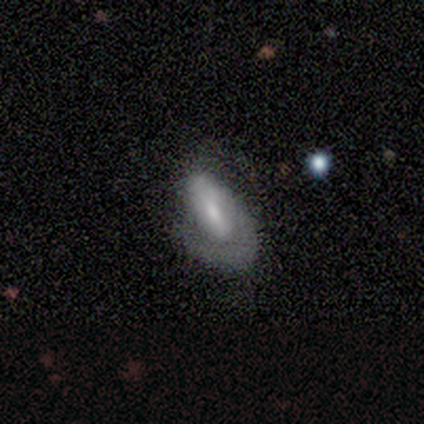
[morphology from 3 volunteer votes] featured or disk 100%, smooth 0%, star or artifact 0%. Down the decision tree: edge-on disk — no (100%); bar — no (67%); spiral arms — yes (67%); spiral arm count — 1 (100%); spiral winding — tight (50%, tied with medium); bulge size — small (67%); merging — none (67%).